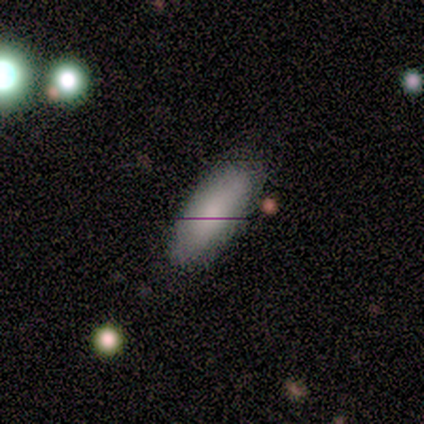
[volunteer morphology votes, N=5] smooth 60%, featured or disk 40%, star or artifact 0%. Down the decision tree: how rounded — in between (100%); merging — none (80%).